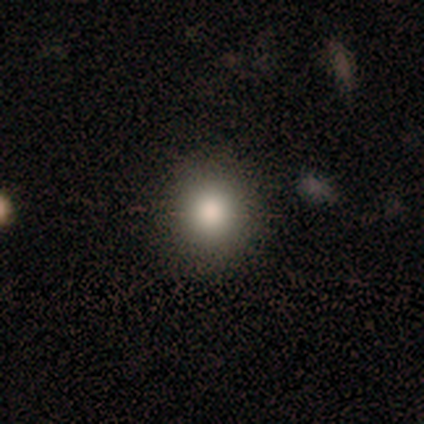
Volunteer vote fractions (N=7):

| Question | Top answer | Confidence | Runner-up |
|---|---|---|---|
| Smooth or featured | smooth | 86% | featured or disk (14%) |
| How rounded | round | 83% | in between (17%) |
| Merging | none | 86% | merger (14%) |